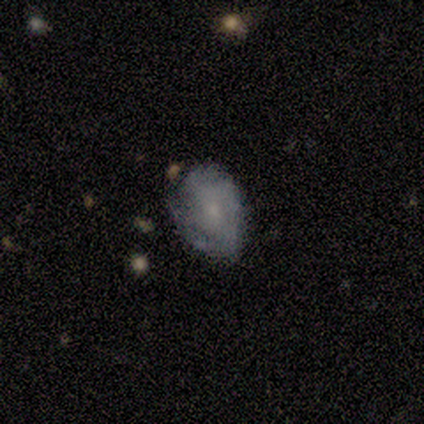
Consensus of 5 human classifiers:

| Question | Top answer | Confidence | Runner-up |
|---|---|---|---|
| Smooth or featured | smooth | 40% | tied: featured or disk (40%) |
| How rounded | round | 50% | tied: in between (50%) |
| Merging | none | 75% | minor disturbance (25%) |